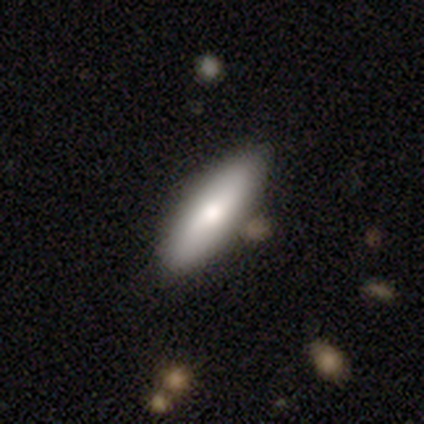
This appears to be a smooth galaxy with no disk features (67%) that is in between round and cigar-shaped (54%). Merging: none (71%).